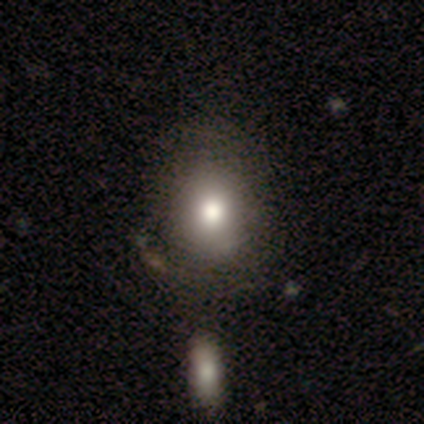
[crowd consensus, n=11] A smooth galaxy with no disk features (45%) that is round (60%). Merging: none (86%).